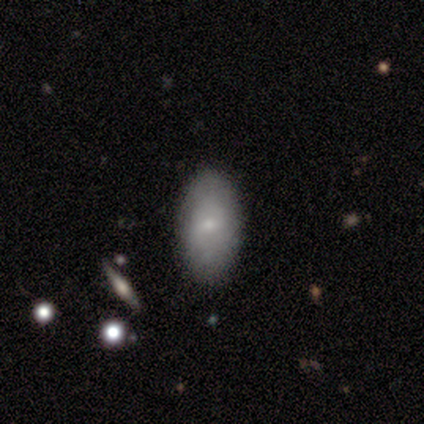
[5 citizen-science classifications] A smooth galaxy with no disk features (80%) that is in between round and cigar-shaped (100%).

Vote fractions:
- Smooth or featured? smooth: 80% / featured or disk: 20% / star or artifact: 0%
- How rounded? in between: 100% / round: 0% / cigar-shaped: 0%
- Merging? none: 100% / minor disturbance: 0% / major disturbance: 0% / merger: 0%